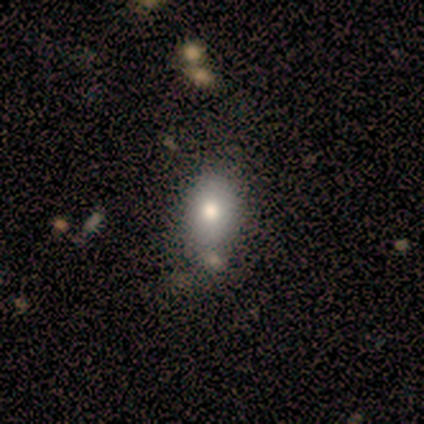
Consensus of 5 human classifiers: smooth 60%, featured or disk 20%, star or artifact 20%. Down the decision tree: how rounded — in between (100%); merging — none (100%).